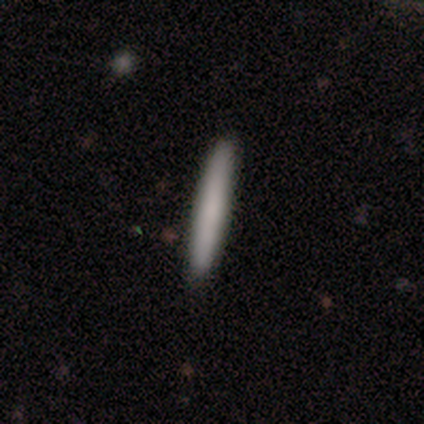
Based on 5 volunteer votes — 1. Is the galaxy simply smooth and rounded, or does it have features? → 100% smooth, 0% featured or disk, 0% star or artifact.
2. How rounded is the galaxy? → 100% cigar-shaped, 0% round, 0% in between.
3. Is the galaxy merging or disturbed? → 80% none, 20% minor disturbance, 0% major disturbance, 0% merger.